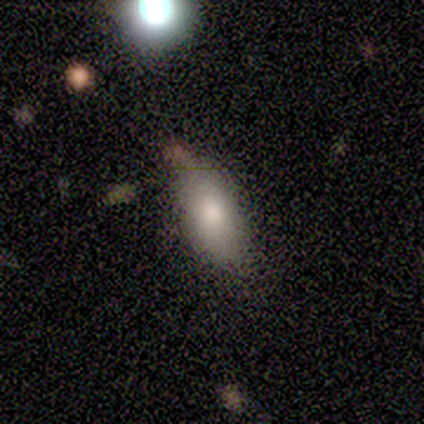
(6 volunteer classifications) Smooth or featured? smooth (67%)
How rounded? in between (100%)
Merging? none (80%)